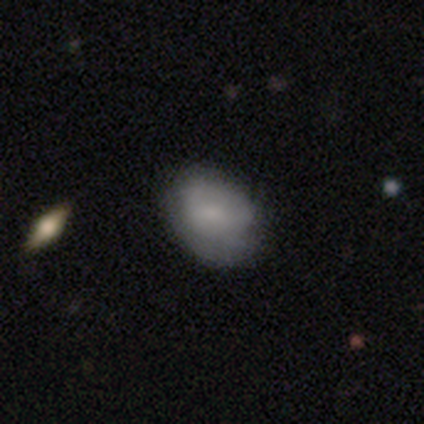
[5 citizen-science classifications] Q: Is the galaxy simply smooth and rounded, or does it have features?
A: smooth — 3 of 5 (60%).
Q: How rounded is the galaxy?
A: in between — 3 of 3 (100%).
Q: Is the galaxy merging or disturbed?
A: none — 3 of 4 (75%).